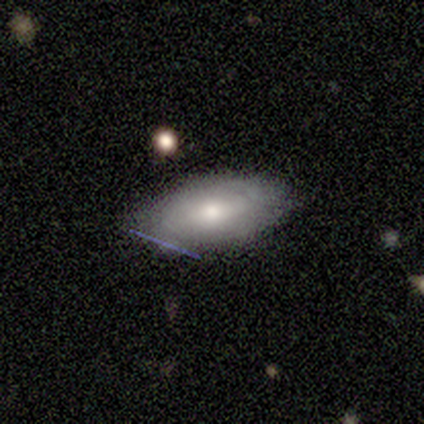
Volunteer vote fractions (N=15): smooth 67%, featured or disk 33%, star or artifact 0%. Down the decision tree: how rounded — in between (100%); merging — none (67%).